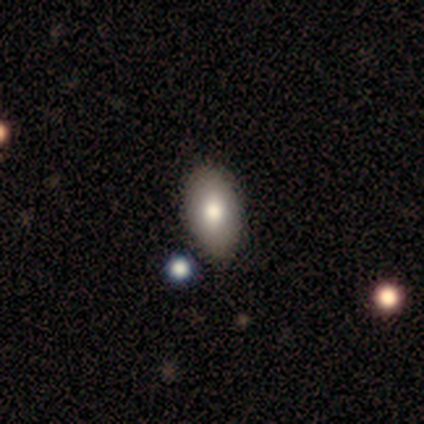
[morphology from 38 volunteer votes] type=smooth (76%); roundness=in between (100%); merging=none (66%).